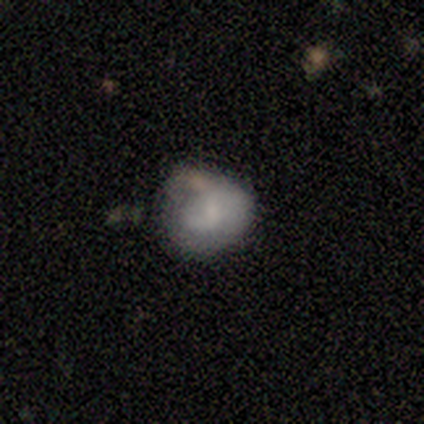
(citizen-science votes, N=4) Q: Smooth or featured?
A: smooth (75%); runner-up: featured or disk (25%)
Q: How rounded?
A: round (67%); runner-up: in between (33%)
Q: Merging?
A: major disturbance (50%); runner-up: none (25%)